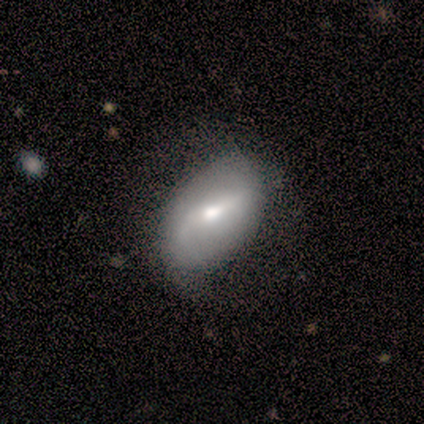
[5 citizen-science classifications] Smooth or featured: featured or disk — 60% (smooth — 40%)
Edge-on disk: no — 100%
Bar: strong — 33% (tied with weak — 33%; no — 33%)
Spiral arms: yes — 67% (no — 33%)
Spiral winding: loose — 100%
Spiral arm count: 2 — 100%
Bulge size: moderate — 67% (small — 33%)
Merging: none — 80% (merger — 20%)